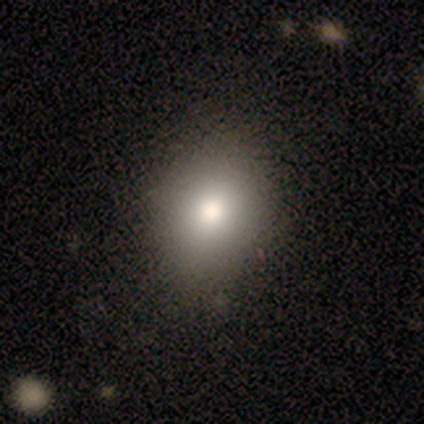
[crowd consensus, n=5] smooth_or_featured: smooth (p=0.80) [alt: star or artifact p=0.20]
how_rounded: in between (p=1.00)
merging: none (p=1.00)